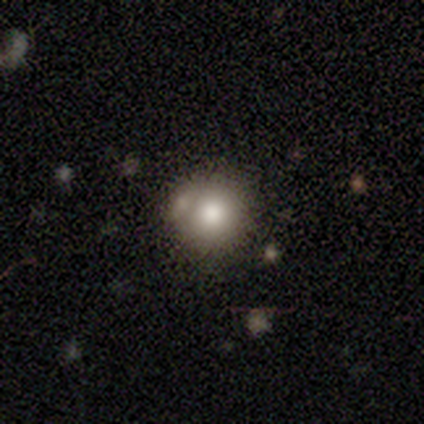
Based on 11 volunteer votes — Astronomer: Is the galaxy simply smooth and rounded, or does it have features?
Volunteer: smooth — 64%.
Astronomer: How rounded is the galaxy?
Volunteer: round — 86%.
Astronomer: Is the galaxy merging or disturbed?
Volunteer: none — 67%.